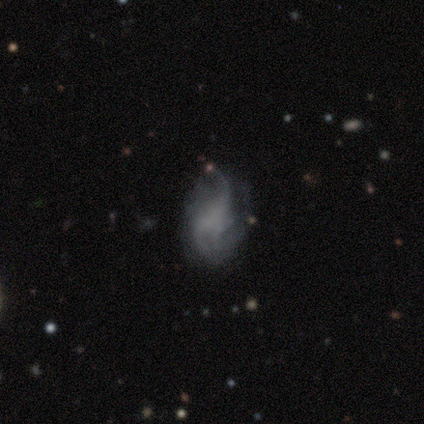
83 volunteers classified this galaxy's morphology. featured or disk 76%, smooth 14%, star or artifact 10%. Down the decision tree: edge-on disk — no (98%); bar — no (77%); spiral arms — yes (84%); spiral arm count — 3 (42%); spiral winding — loose (56%); bulge size — none (81%); merging — none (47%).